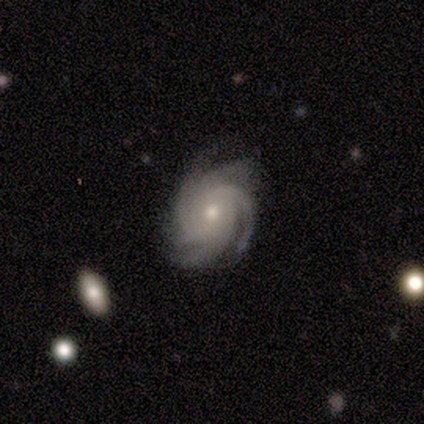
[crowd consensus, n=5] Overall: featured or disk (100%). Edge-on disk: no (100%). Bar: no (60%; strong 20%). Spiral arms: yes (100%). Spiral arm count: 4 (40%, tied with more than 4). Spiral winding: tight (80%). Bulge size: moderate (40%, tied with small). Merging: none (60%; minor disturbance 20%).